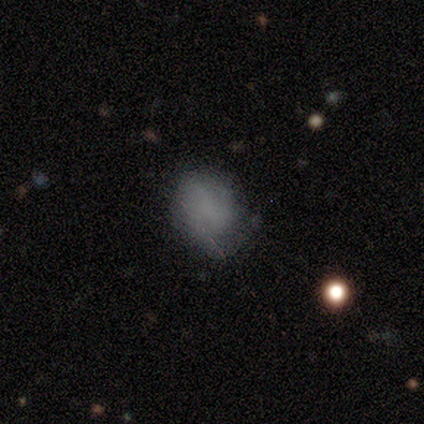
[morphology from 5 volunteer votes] This is likely a smooth galaxy (60%). How rounded: clearly in between (100%). Merging: likely none (75%).